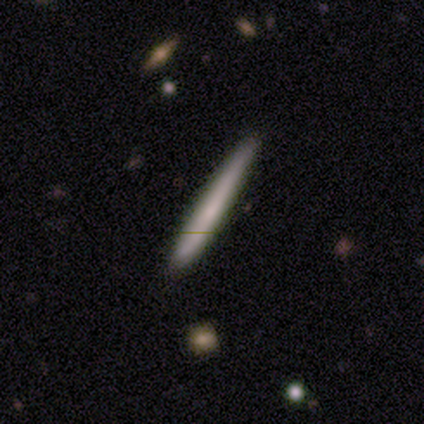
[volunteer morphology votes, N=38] Smooth or featured? smooth (63%)
How rounded? cigar-shaped (100%)
Merging? none (89%)